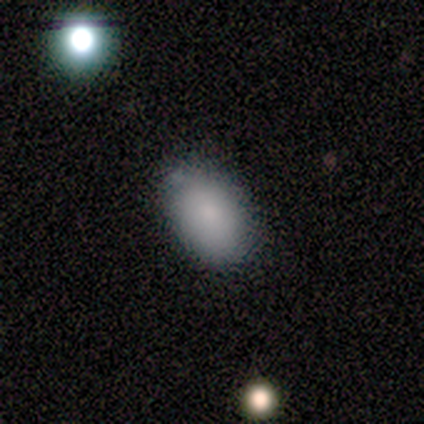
smooth 100%, featured or disk 0%, star or artifact 0%. Down the decision tree: how rounded — in between (100%); merging — none (80%).